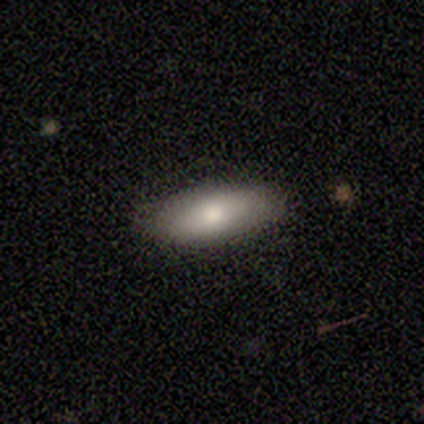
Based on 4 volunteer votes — Smooth or featured?
  - smooth: 75% *
  - star or artifact: 25%
  - featured or disk: 0%
How rounded?
  - in between: 100% *
  - round: 0%
  - cigar-shaped: 0%
Merging?
  - none: 100% *
  - minor disturbance: 0%
  - major disturbance: 0%
  - merger: 0%